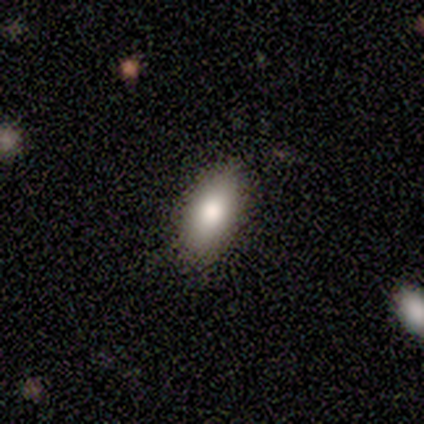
Volunteers were most divided on "how rounded": in between: 67%, cigar-shaped: 33%, round: 0%. More confident: smooth or featured — smooth (100%); merging — none (100%).